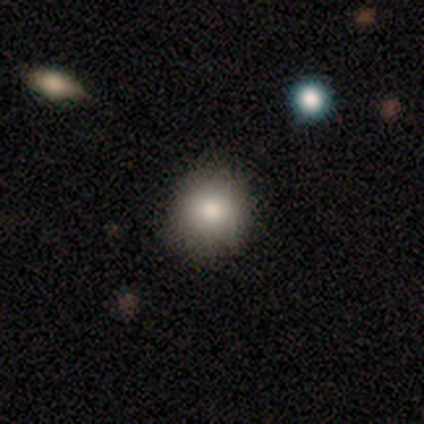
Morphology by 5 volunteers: Smooth or featured?
  - smooth: 80% *
  - star or artifact: 20%
  - featured or disk: 0%
How rounded?
  - round: 100% *
  - in between: 0%
  - cigar-shaped: 0%
Merging?
  - none: 75% *
  - minor disturbance: 25%
  - major disturbance: 0%
  - merger: 0%